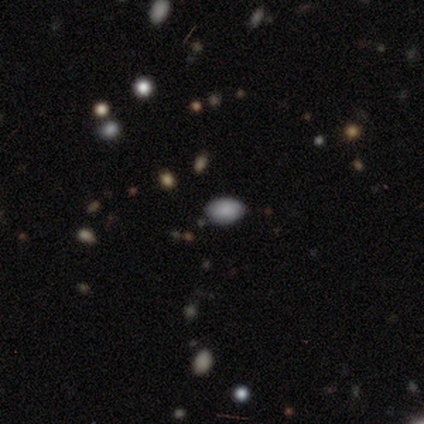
A smooth galaxy with no disk features (75%) that is in between round and cigar-shaped (100%). Merging: none (100%).